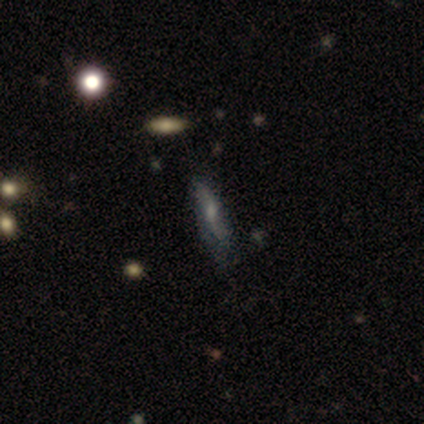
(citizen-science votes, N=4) A featured or disk galaxy (50%) with no bar (100%), 2 (100%) loose (100%) spiral arms (50%, tied with no) and a moderate central bulge (50%, tied with none). Merging: none (33%, tied with minor disturbance and major disturbance).